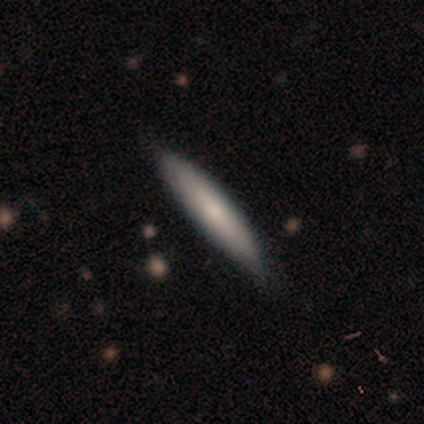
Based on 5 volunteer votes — Volunteers were most divided on "how rounded": cigar-shaped: 80%, in between: 20%, round: 0%. More confident: smooth or featured — smooth (100%); merging — none (80%).